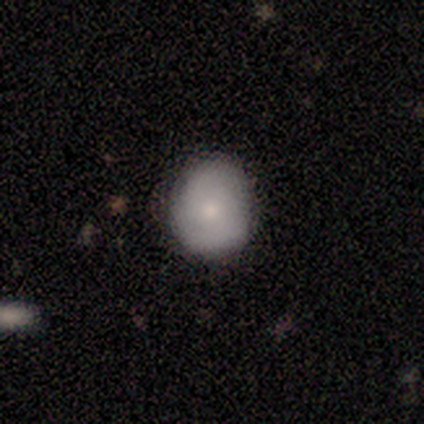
A smooth galaxy with no disk features (67%) that is round (100%). Merging: none (67%).